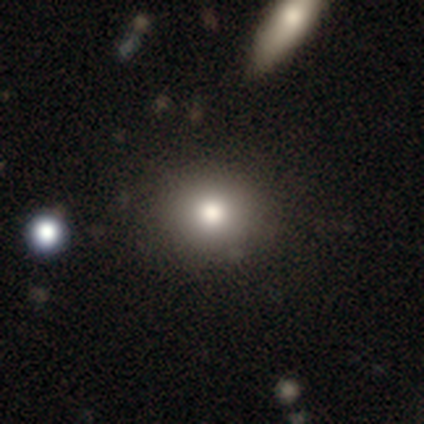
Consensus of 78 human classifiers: smooth 82%, star or artifact 13%, featured or disk 5%. Down the decision tree: how rounded — round (83%); merging — none (47%).